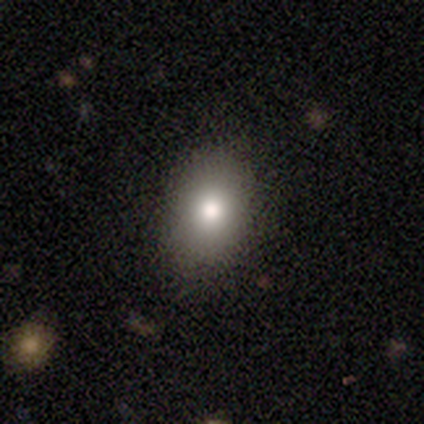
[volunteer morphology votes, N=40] This is clearly a smooth galaxy (82%). How rounded: likely in between (76%). Merging: clearly none (86%).